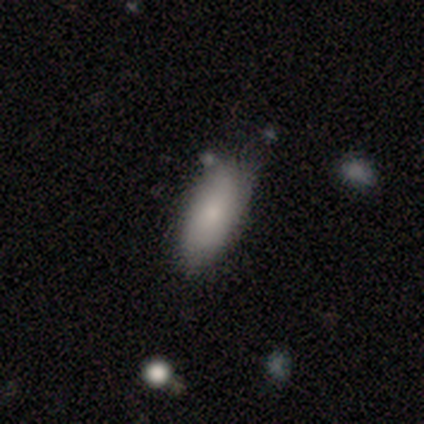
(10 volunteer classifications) Volunteers were most divided on "merging": none: 67%, minor disturbance: 22%, merger: 11%, major disturbance: 0%. More confident: how rounded — in between (88%); smooth or featured — smooth (80%).